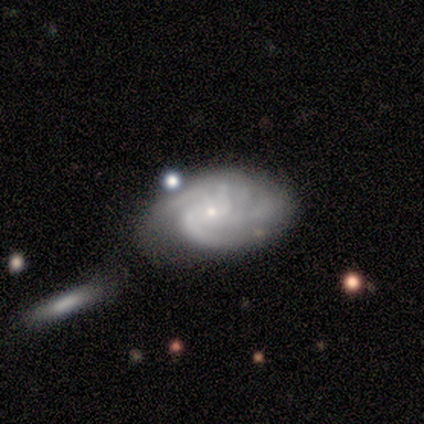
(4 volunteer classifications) Smooth or featured? 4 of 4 (100%) said featured or disk. Edge-on disk? 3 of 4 (75%) said no. Bar? 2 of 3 (67%) said weak. Spiral arms? 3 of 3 (100%) said yes. Spiral winding? 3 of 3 (100%) said medium. Spiral arm count? 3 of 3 (100%) said 3. Bulge size? 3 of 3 (100%) said small. Merging? 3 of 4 (75%) said none.